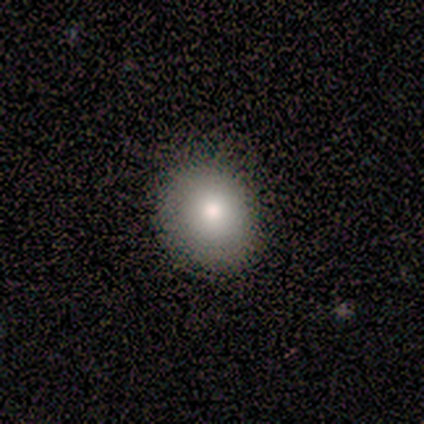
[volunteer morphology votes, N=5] smooth-or-featured: smooth: 100% | featured or disk: 0% | star or artifact: 0%
  how-rounded: round: 100% | in between: 0% | cigar-shaped: 0%
  merging: none: 80% | minor disturbance: 20% | major disturbance: 0% | merger: 0%